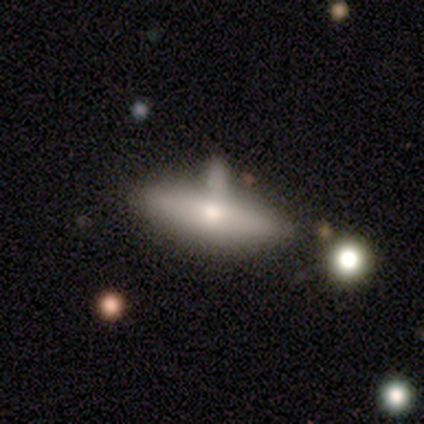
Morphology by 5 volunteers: A smooth galaxy with no disk features (60%) that is cigar-shaped (100%). Merging: none (75%).